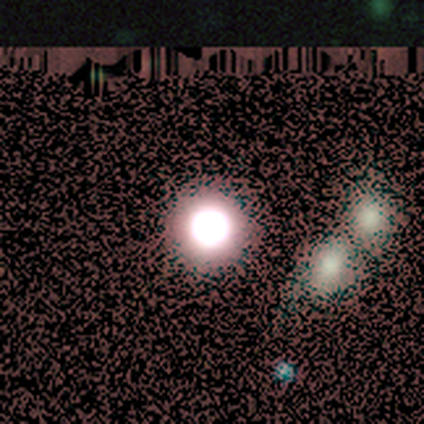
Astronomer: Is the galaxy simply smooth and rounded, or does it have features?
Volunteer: smooth — 45% (runner-up: star or artifact, 36%).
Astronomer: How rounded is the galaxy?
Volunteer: round — 100%.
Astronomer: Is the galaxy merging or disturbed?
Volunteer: none — 100%.